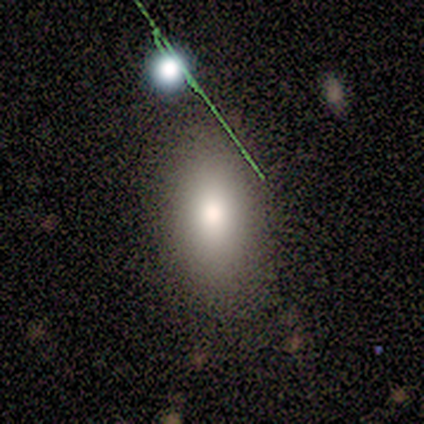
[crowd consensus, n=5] This is likely a smooth galaxy (60%). How rounded: clearly in between (100%). Merging: clearly none (100%).